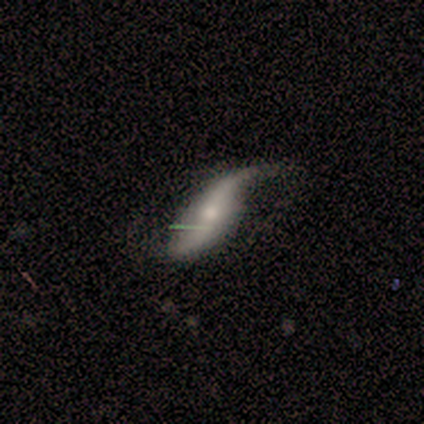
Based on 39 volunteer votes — A featured or disk galaxy (77%) with no bar (52%), 2 (92%) loose (92%) spiral arms (96%) and a moderate central bulge (56%). Merging: none (51%).